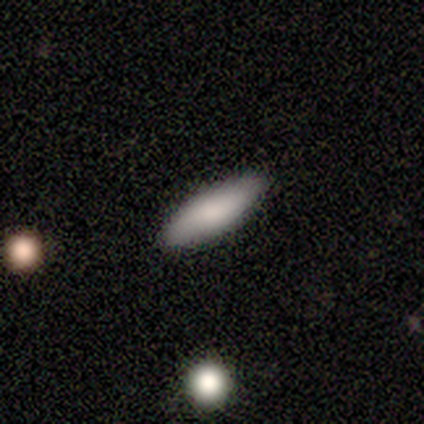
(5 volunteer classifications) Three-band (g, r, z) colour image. It shows a smooth galaxy with no disk features (80%) that is cigar-shaped (75%). Merging: none (100%).